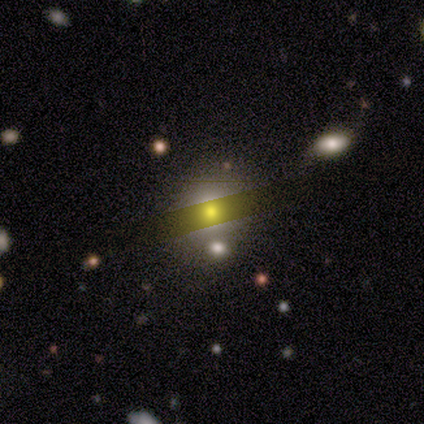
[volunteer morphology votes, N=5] Overall: smooth (100%). How rounded: in between (60%; round 40%). Merging: none (80%).